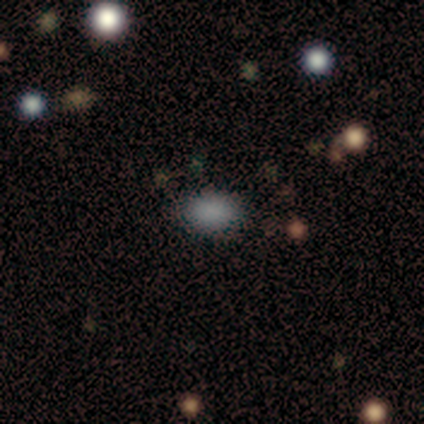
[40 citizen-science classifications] smooth 72%, star or artifact 25%, featured or disk 2%. Down the decision tree: how rounded — in between (76%); merging — none (90%).